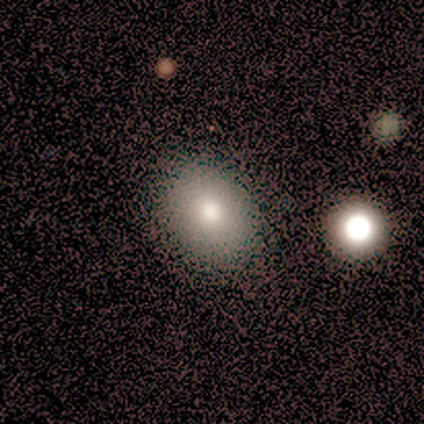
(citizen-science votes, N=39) Morphology: type=smooth (82%); roundness=in between (62%); merging=none (62%).